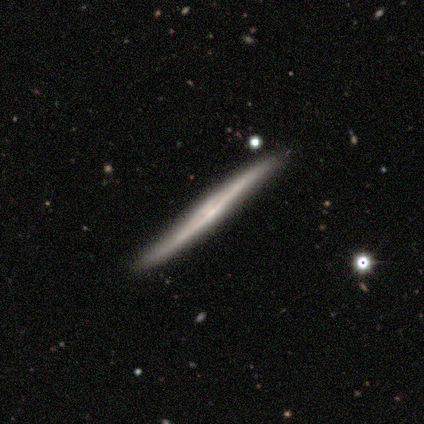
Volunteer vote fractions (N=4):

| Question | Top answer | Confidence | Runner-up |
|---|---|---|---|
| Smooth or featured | featured or disk | 100% | — |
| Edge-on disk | yes | 100% | — |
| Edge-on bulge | none | 75% | rounded (25%) |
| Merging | none | 50% | tied: minor disturbance (50%) |